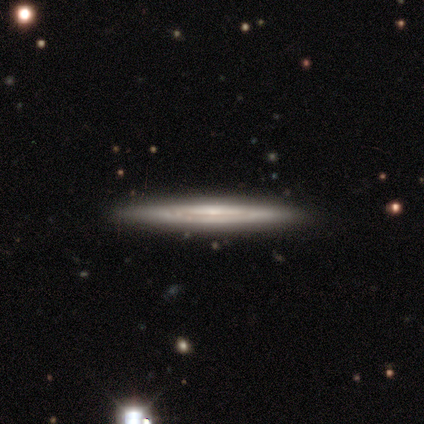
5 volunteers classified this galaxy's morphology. This is likely a featured or disk galaxy (60%). It is clearly viewed edge-on (100%). Edge-on bulge: likely rounded (67%). Merging: clearly none (100%).